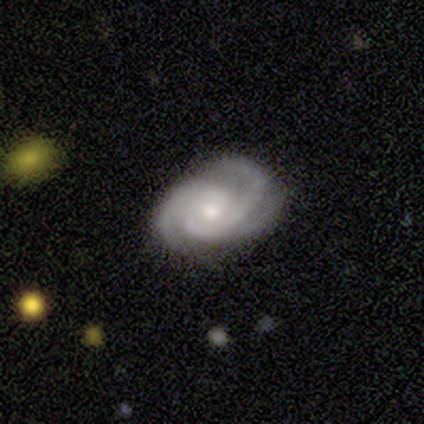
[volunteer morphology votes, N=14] Smooth or featured?
  - featured or disk: 86% *
  - smooth: 7%
  - star or artifact: 7%
Edge-on disk?
  - no: 100% *
  - yes: 0%
Bar?
  - no: 67% *
  - weak: 33%
  - strong: 0%
Spiral arms?
  - yes: 100% *
  - no: 0%
Spiral winding?
  - tight: 50% *
  - medium: 42%
  - loose: 8%
Spiral arm count?
  - 2: 58% *
  - 3: 42%
  - 1: 0%
  - 4: 0%
  - more than 4: 0%
  - can't tell: 0%
Bulge size?
  - moderate: 83% *
  - small: 17%
  - dominant: 0%
  - large: 0%
  - none: 0%
Merging?
  - none: 62% *
  - minor disturbance: 23%
  - major disturbance: 15%
  - merger: 0%